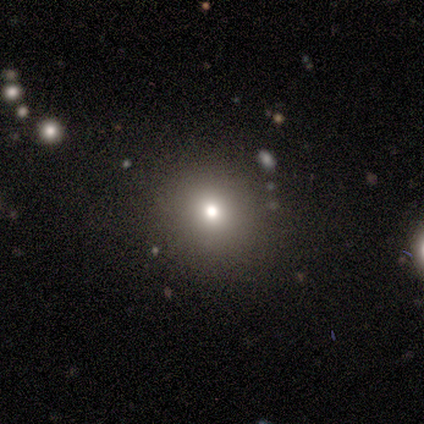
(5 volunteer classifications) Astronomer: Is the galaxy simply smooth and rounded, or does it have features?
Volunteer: smooth — 80%.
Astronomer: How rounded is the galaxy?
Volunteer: round — 100%.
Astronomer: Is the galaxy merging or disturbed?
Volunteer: none — 100%.